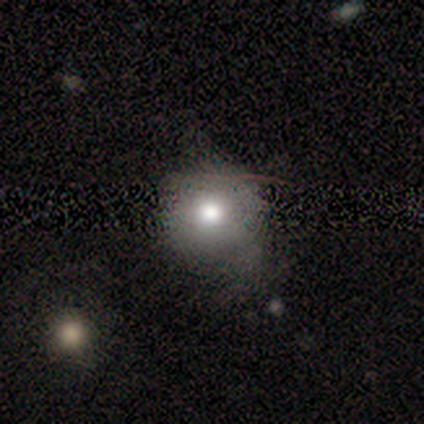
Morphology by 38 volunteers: type=smooth (74%); roundness=round (93%); merging=none (60%).